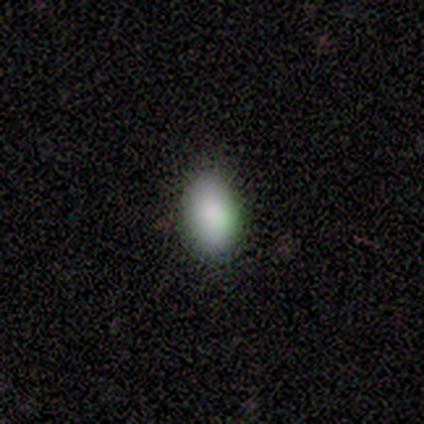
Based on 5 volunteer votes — smooth-or-featured: smooth: 80% | star or artifact: 20% | featured or disk: 0%
  how-rounded: in between: 75% | round: 25% | cigar-shaped: 0%
  merging: none: 100% | minor disturbance: 0% | major disturbance: 0% | merger: 0%